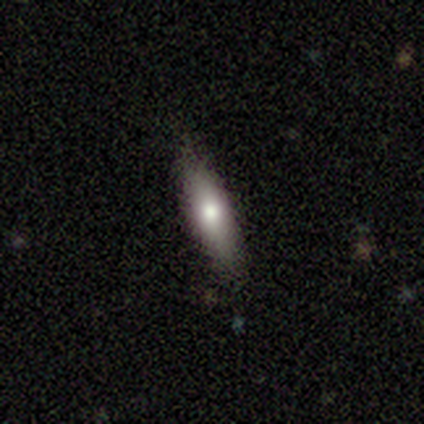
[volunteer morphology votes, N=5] Overall: smooth (60%; featured or disk 40%). How rounded: cigar-shaped (67%; in between 33%). Merging: none (100%).